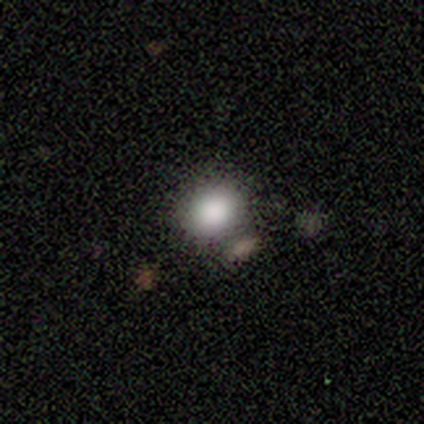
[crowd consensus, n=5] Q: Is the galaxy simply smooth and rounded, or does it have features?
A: smooth — 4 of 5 (80%).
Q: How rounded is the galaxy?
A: round — 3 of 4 (75%).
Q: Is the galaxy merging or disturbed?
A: none — 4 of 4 (100%).